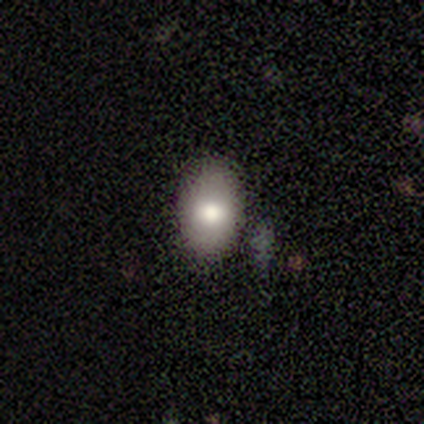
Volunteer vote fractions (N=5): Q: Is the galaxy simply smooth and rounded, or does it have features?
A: smooth — 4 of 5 (80%).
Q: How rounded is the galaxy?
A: in between — 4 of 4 (100%).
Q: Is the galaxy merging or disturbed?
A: none — 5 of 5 (100%).